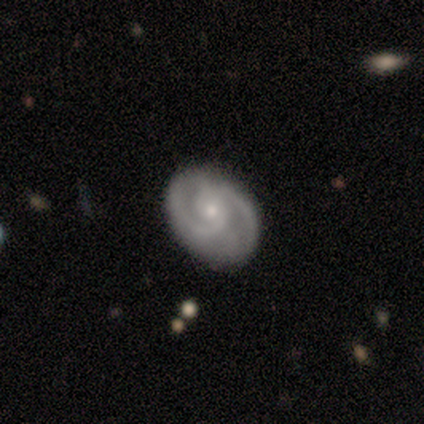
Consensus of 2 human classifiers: Smooth or featured?
  - featured or disk: 100% *
  - smooth: 0%
  - star or artifact: 0%
Edge-on disk?
  - no: 100% *
  - yes: 0%
Bar?
  - weak: 100% *
  - strong: 0%
  - no: 0%
Spiral arms?
  - yes: 100% *
  - no: 0%
Spiral winding?
  - tight: 50% * (tied)
  - medium: 50% * (tied)
  - loose: 0%
Spiral arm count?
  - 2: 100% *
  - 1: 0%
  - 3: 0%
  - 4: 0%
  - more than 4: 0%
  - can't tell: 0%
Bulge size?
  - moderate: 50% * (tied)
  - small: 50% * (tied)
  - dominant: 0%
  - large: 0%
  - none: 0%
Merging?
  - none: 100% *
  - minor disturbance: 0%
  - major disturbance: 0%
  - merger: 0%